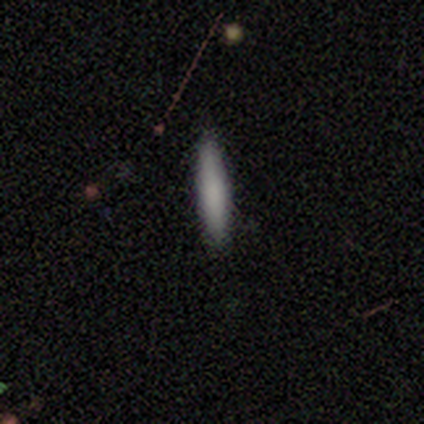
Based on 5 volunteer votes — Overall: smooth (100%). How rounded: cigar-shaped (100%). Merging: none (100%).